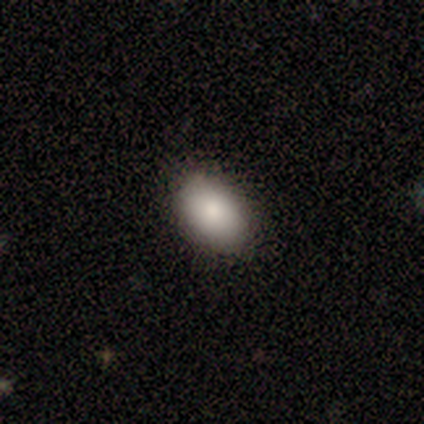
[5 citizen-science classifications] smooth_or_featured: smooth (p=1.00)
how_rounded: in between (p=1.00)
merging: none (p=0.60) [alt: minor disturbance p=0.40]